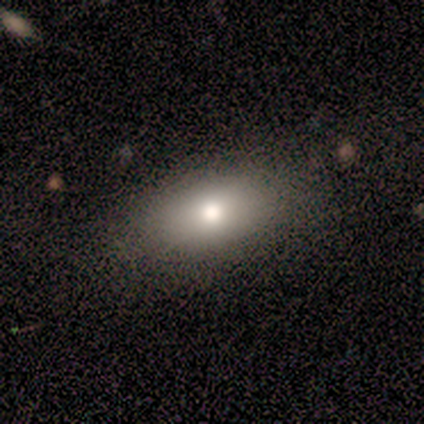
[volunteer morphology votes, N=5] A smooth galaxy with no disk features (80%) that is in between round and cigar-shaped (75%). Merging: none (75%).